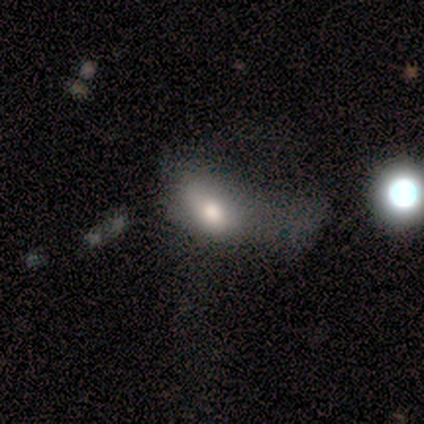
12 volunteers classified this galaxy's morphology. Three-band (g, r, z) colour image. It shows a smooth galaxy with no disk features (67%) that is in between round and cigar-shaped (75%). Merging: major disturbance (50%).